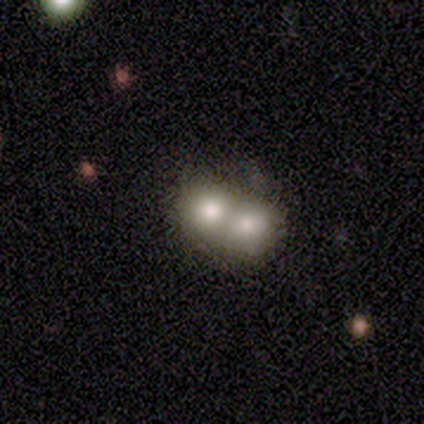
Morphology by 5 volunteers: Q: Smooth or featured?
A: smooth (60%); runner-up: featured or disk (20%)
Q: How rounded?
A: round (100%)
Q: Merging?
A: merger (75%); runner-up: none (25%)